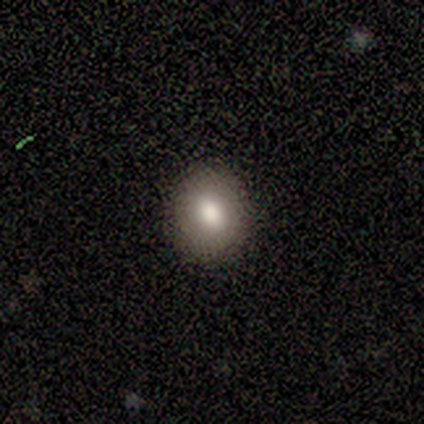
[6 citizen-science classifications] This appears to be a smooth galaxy with no disk features (100%) that is round (67%). Merging: none (100%).